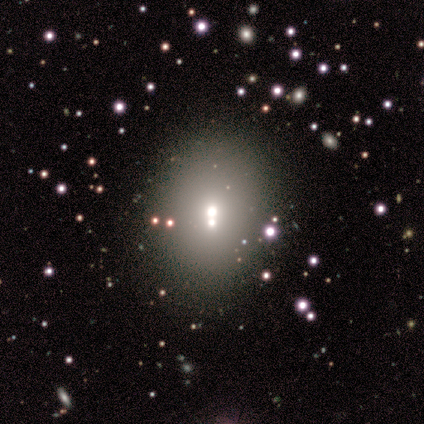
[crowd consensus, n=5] Volunteers were most divided on "smooth or featured": star or artifact: 80%, smooth: 20%, featured or disk: 0%.